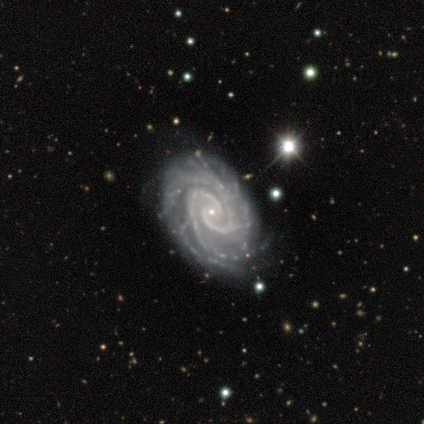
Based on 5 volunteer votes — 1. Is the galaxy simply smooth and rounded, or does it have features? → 80% featured or disk, 20% smooth, 0% star or artifact.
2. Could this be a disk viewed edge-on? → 100% no, 0% yes.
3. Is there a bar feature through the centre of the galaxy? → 75% no, 25% weak, 0% strong.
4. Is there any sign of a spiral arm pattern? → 100% yes, 0% no.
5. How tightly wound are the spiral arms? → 100% tight, 0% medium, 0% loose.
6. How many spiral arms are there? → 100% 2, 0% 1, 0% 3, 0% 4, 0% more than 4, 0% can't tell.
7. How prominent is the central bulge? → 100% small, 0% dominant, 0% large, 0% moderate, 0% none.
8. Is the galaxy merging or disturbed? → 80% none, 20% minor disturbance, 0% major disturbance, 0% merger.